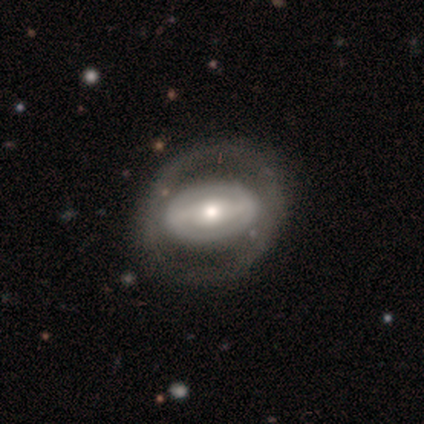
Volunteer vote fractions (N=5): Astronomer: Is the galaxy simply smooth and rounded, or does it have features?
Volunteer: featured or disk — 60% (runner-up: smooth, 40%).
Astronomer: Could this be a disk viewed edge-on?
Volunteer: no — 67%.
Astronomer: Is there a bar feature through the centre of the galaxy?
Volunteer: weak — 50%, tied with no at 50%.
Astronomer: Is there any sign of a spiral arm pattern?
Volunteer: no — 100%.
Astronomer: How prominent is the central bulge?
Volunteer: moderate — 50%, tied with small at 50%.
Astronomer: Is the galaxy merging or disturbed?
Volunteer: none — 60% (runner-up: minor disturbance, 40%).